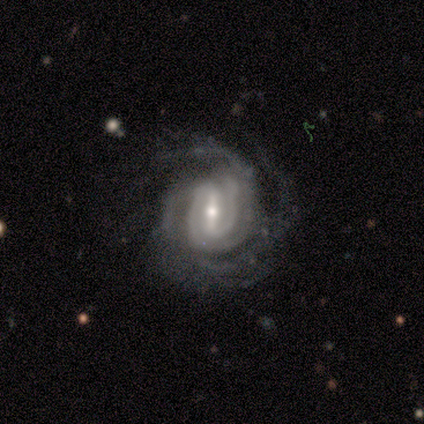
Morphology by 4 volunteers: A featured or disk galaxy (100%) with a strong bar (75%), more than 4 (50%) tight (50%, tied with medium) spiral arms (100%) and a small central bulge (75%).

Vote fractions:
- Smooth or featured? featured or disk: 100% / smooth: 0% / star or artifact: 0%
- Edge-on disk? no: 100% / yes: 0%
- Bar? strong: 75% / weak: 25% / no: 0%
- Spiral arms? yes: 100% / no: 0%
- Spiral winding? tight: 50% (tied) / medium: 50% (tied) / loose: 0%
- Spiral arm count? more than 4: 50% / 2: 25% / 4: 25% / 1: 0% / 3: 0% / can't tell: 0%
- Bulge size? small: 75% / moderate: 25% / dominant: 0% / large: 0% / none: 0%
- Merging? none: 50% / minor disturbance: 25% / major disturbance: 25% / merger: 0%